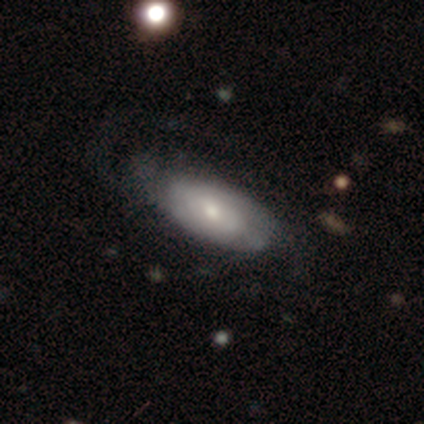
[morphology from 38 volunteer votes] This appears to be a featured or disk galaxy (61%) with no bar (64%), 2 (50%, tied with can't tell) tight (42%) spiral arms (55%) and a moderate central bulge (55%). Merging: none (25%).